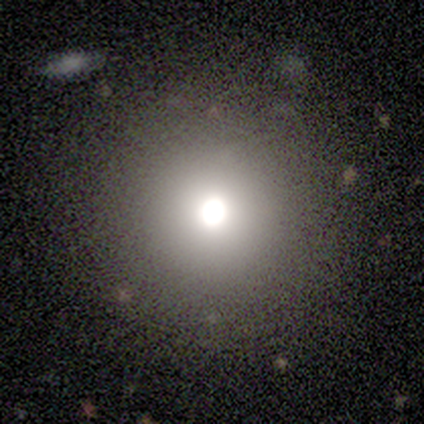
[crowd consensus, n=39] Smooth or featured? smooth (54%)
How rounded? round (95%)
Merging? none (96%)